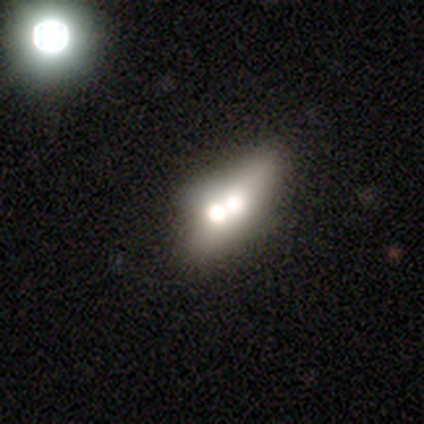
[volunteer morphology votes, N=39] Smooth or featured: smooth — 49% (featured or disk — 38%)
How rounded: in between — 74% (cigar-shaped — 16%)
Merging: none — 41% (merger — 32%)